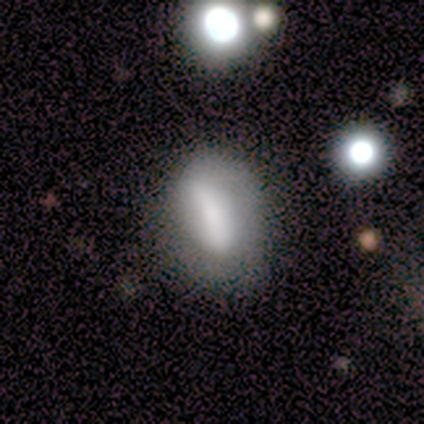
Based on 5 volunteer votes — Q: Smooth or featured?
A: featured or disk (60%); runner-up: smooth (40%)
Q: Edge-on disk?
A: no (100%)
Q: Bar?
A: strong (100%)
Q: Spiral arms?
A: yes (67%); runner-up: no (33%)
Q: Spiral winding?
A: medium (50%); tied with: loose (50%)
Q: Spiral arm count?
A: 1 (50%); tied with: can't tell (50%)
Q: Bulge size?
A: small (100%)
Q: Merging?
A: minor disturbance (60%); runner-up: none (40%)